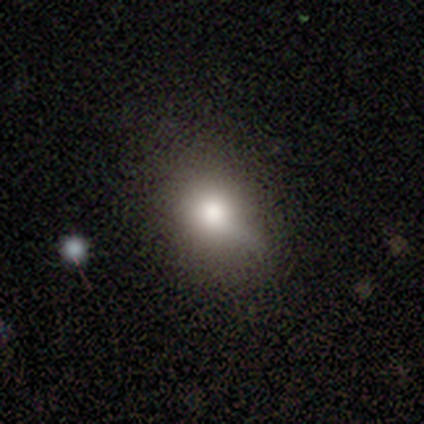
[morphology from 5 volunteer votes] smooth_or_featured: smooth (p=0.60) [alt: featured or disk p=0.20]
how_rounded: round (p=0.33) [tied with: in between p=0.33, cigar-shaped p=0.33]
merging: none (p=0.50) [tied with: minor disturbance p=0.50]